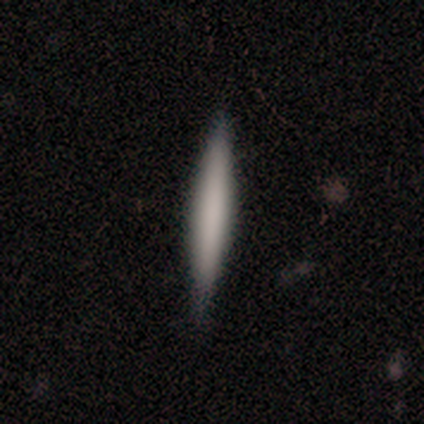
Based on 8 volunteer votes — This appears to be a smooth galaxy with no disk features (75%) that is cigar-shaped (100%). Merging: none (88%).